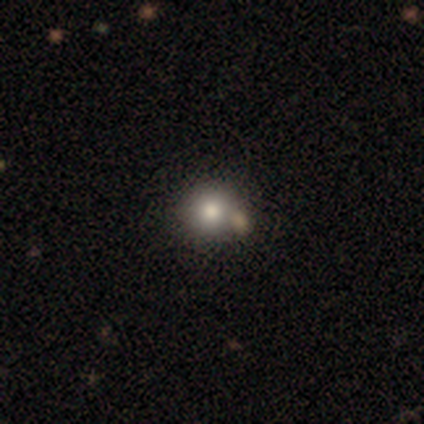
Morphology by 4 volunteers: A smooth galaxy with no disk features (75%) that is round (100%). Merging: none (67%).